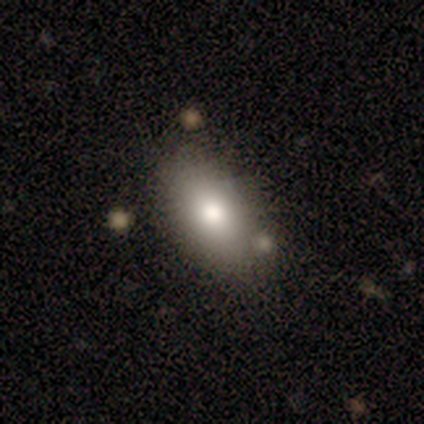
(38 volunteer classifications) Smooth or featured?
  - smooth: 74% *
  - star or artifact: 16%
  - featured or disk: 11%
How rounded?
  - in between: 89% *
  - cigar-shaped: 7%
  - round: 4%
Merging?
  - none: 66% *
  - minor disturbance: 19%
  - merger: 12%
  - major disturbance: 3%